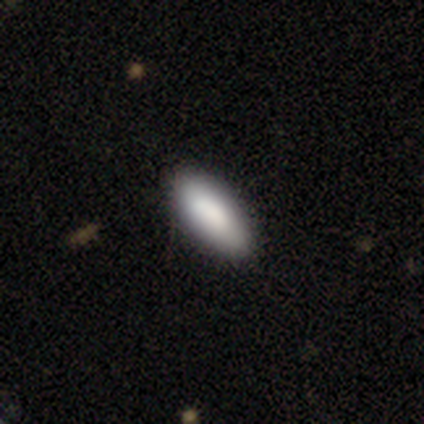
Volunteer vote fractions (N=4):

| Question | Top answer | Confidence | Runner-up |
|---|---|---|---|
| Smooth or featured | smooth | 75% | star or artifact (25%) |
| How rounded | in between | 67% | cigar-shaped (33%) |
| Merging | none | 100% | — |